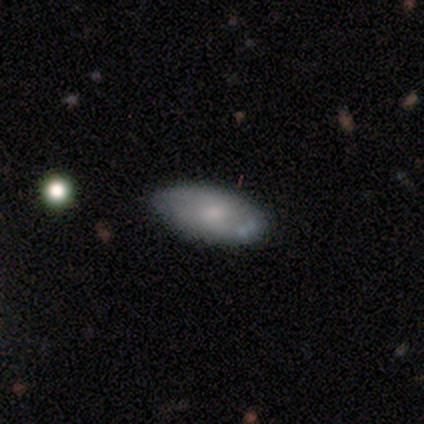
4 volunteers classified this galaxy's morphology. smooth_or_featured: smooth (p=0.75) [alt: featured or disk p=0.25]
how_rounded: in between (p=1.00)
merging: none (p=1.00)